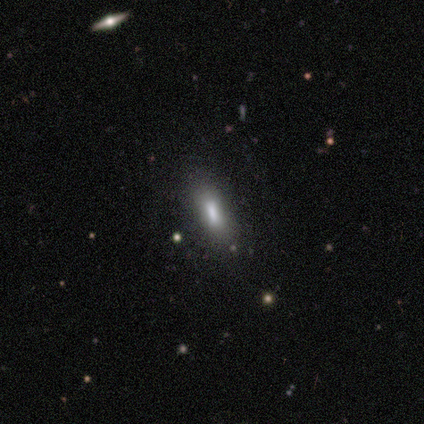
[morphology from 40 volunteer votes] A smooth galaxy with no disk features (60%) that is in between round and cigar-shaped (50%). Merging: none (78%).